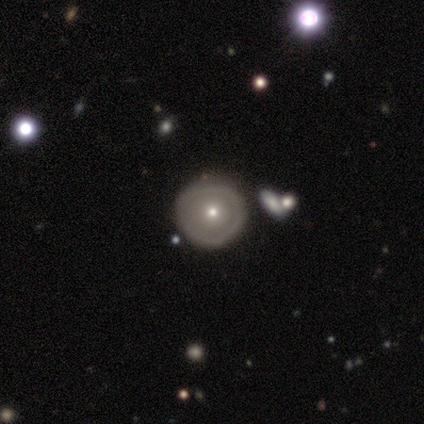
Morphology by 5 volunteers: smooth 60%, featured or disk 40%, star or artifact 0%. Down the decision tree: how rounded — round (100%); merging — none (80%).